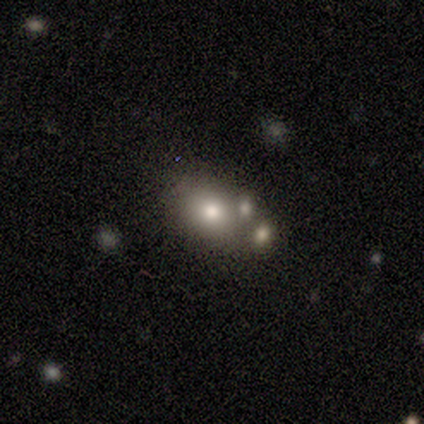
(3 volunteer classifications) A smooth galaxy with no disk features (100%) that is in between round and cigar-shaped (67%). Merging: none (33%, tied with minor disturbance and merger).